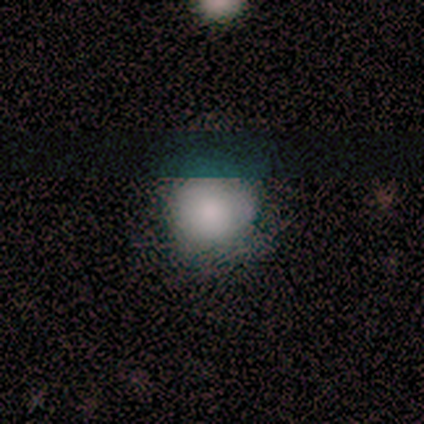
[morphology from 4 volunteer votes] A smooth galaxy with no disk features (75%) that is round (67%). Merging: minor disturbance (75%).